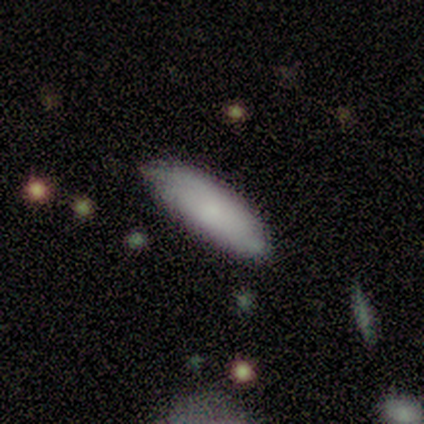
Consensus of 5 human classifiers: Q: Smooth or featured?
A: smooth (60%); runner-up: featured or disk (40%)
Q: How rounded?
A: cigar-shaped (67%); runner-up: in between (33%)
Q: Merging?
A: none (60%); runner-up: minor disturbance (20%)